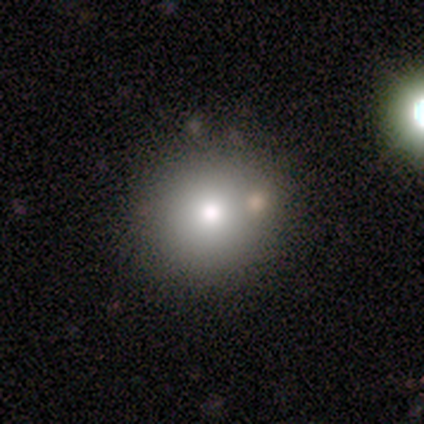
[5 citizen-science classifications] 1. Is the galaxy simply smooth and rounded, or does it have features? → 100% smooth, 0% featured or disk, 0% star or artifact.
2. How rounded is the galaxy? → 80% round, 20% cigar-shaped, 0% in between.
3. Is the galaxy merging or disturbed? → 80% none, 20% major disturbance, 0% minor disturbance, 0% merger.